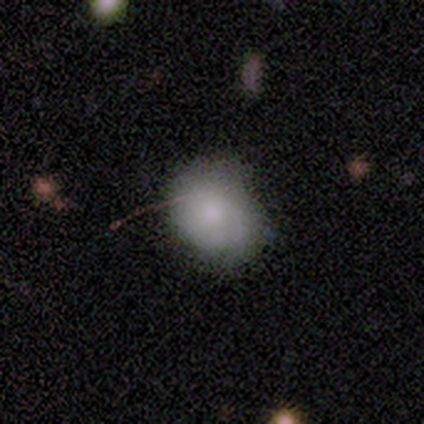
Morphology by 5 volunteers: A smooth galaxy with no disk features (80%) that is round (50%, tied with in between). Merging: none (50%, tied with minor disturbance).